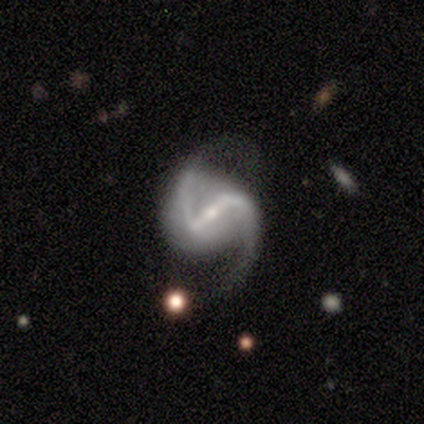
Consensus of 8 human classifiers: Volunteers were most divided on "bar": strong: 62%, weak: 38%, no: 0%. More confident: smooth or featured — featured or disk (100%); edge-on disk — no (100%); spiral arms — yes (100%); spiral arm count — 2 (100%); spiral winding — medium (62%); bulge size — small (62%); merging — minor disturbance (50%).